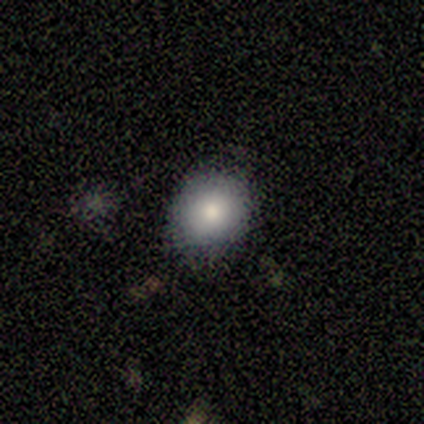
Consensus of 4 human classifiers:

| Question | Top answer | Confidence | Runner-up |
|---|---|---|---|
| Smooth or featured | smooth | 100% | — |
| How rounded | round | 100% | — |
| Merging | none | 100% | — |